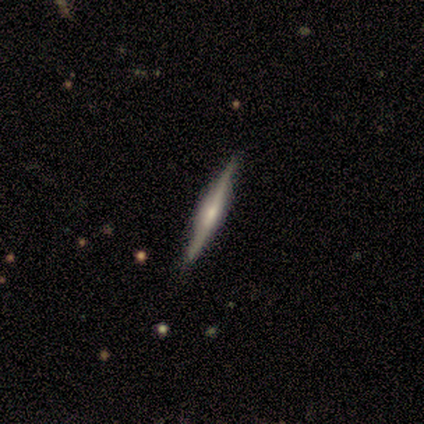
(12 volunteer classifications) Smooth or featured? 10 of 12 (83%) said featured or disk. Edge-on disk? 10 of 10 (100%) said yes. Edge-on bulge? 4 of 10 (40%, tied with rounded) said boxy. Merging? 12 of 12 (100%) said none.